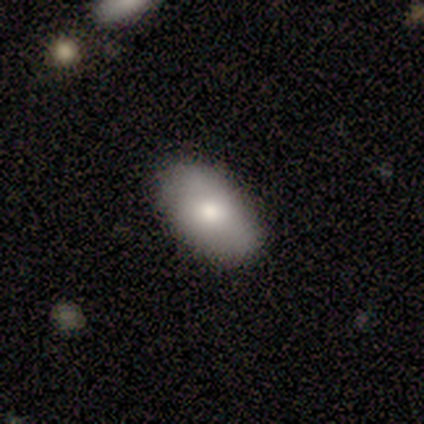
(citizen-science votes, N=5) Smooth or featured? 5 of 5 (100%) said smooth. How rounded? 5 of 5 (100%) said in between. Merging? 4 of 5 (80%) said none.